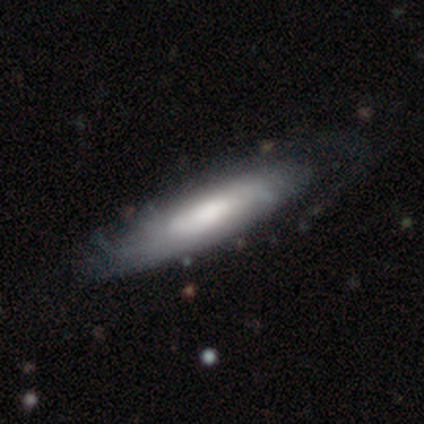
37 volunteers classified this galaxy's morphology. A featured or disk galaxy (59%) viewed edge-on (50%, tied with no) with a rounded central bulge (64%). Merging: none (34%).